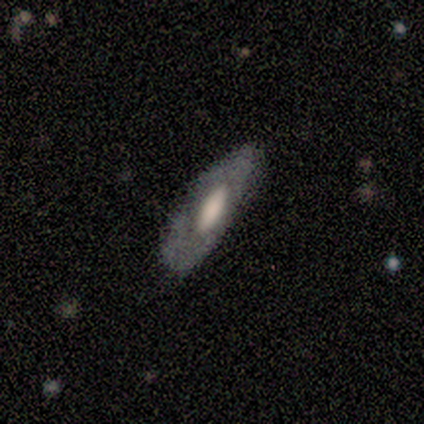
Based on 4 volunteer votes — Volunteers were most divided on "how rounded": in between: 67%, cigar-shaped: 33%, round: 0%. More confident: merging — none (100%); smooth or featured — smooth (75%).